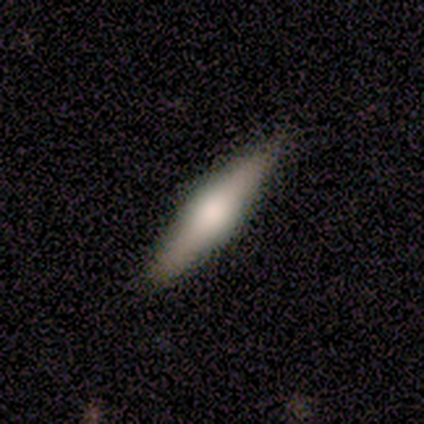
featured or disk 60%, smooth 40%, star or artifact 0%. Down the decision tree: edge-on disk — yes (67%); edge-on bulge — rounded (100%); merging — none (100%).